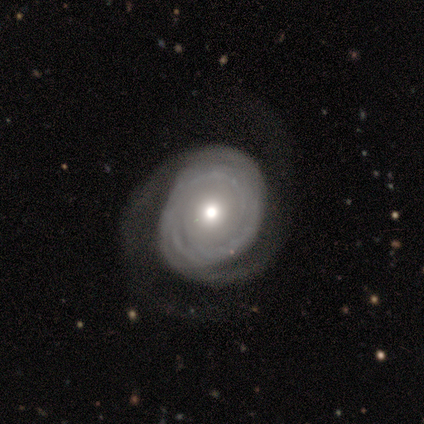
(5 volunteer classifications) smooth-or-featured: featured or disk: 100% | smooth: 0% | star or artifact: 0%
  disk-edge-on: no: 100% | yes: 0%
    bar: no: 80% | weak: 20% | strong: 0%
    has-spiral-arms: yes: 100% | no: 0%
      spiral-winding: tight: 80% | loose: 20% | medium: 0%
      spiral-arm-count: 2: 60% | can't tell: 40% | 1: 0% | 3: 0% | 4: 0% | more than 4: 0%
    bulge-size: moderate: 40% (tied) | small: 40% (tied) | large: 20% | dominant: 0% | none: 0%
  merging: none: 60% | major disturbance: 40% | minor disturbance: 0% | merger: 0%